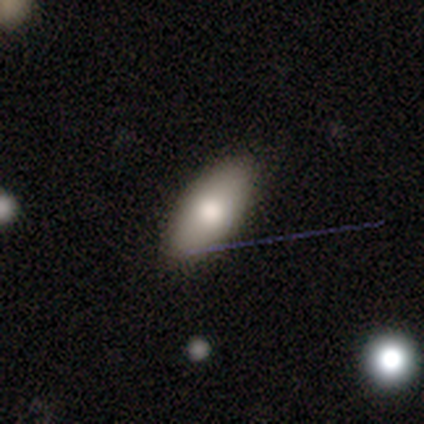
smooth 83%, featured or disk 17%, star or artifact 0%. Down the decision tree: how rounded — in between (80%); merging — none (100%).